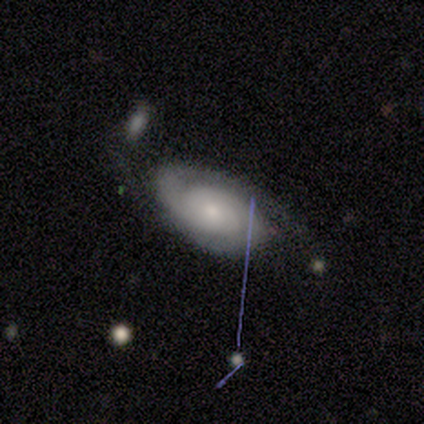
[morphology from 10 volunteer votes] type=featured or disk (90%); edge-on=no (89%); bar=no (62%); spiral arms=yes (100%); winding=tight (62%); arm count=2 (75%); bulge=small (88%); merging=none (100%).